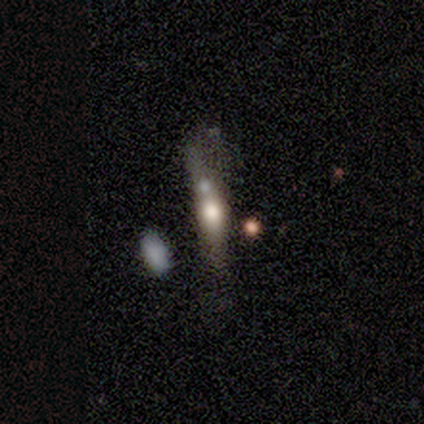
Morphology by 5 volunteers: A smooth galaxy with no disk features (60%) that is cigar-shaped (67%). Merging: merger (50%).